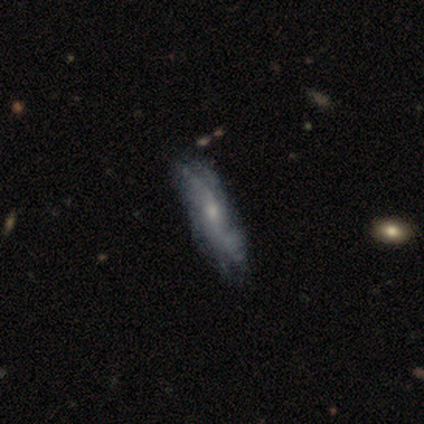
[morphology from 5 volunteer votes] Overall: featured or disk (80%). Edge-on disk: no (75%). Bar: no (100%). Spiral arms: yes (67%; no 33%). Spiral arm count: 2 (100%). Spiral winding: loose (100%). Bulge size: moderate (67%; none 33%). Merging: none (50%, tied with major disturbance).